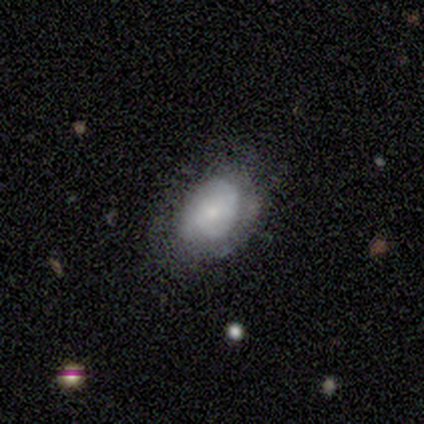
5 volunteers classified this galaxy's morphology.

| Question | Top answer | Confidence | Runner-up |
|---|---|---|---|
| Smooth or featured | featured or disk | 80% | smooth (20%) |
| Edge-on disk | no | 100% | — |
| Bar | no | 100% | — |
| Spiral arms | no | 75% | yes (25%) |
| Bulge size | small | 100% | — |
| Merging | none | 60% | minor disturbance (40%) |